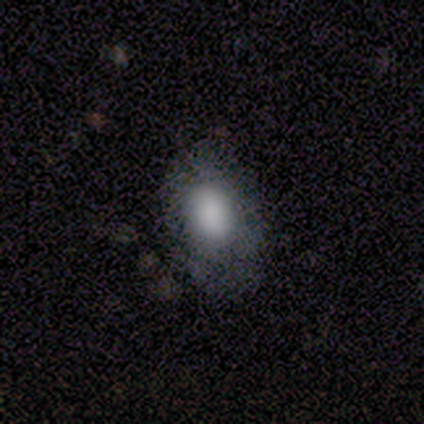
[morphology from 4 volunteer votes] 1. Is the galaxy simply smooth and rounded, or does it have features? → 50% smooth (tied), 50% featured or disk (tied), 0% star or artifact.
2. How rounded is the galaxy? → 50% round (tied), 50% in between (tied), 0% cigar-shaped.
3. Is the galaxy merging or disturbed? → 50% none (tied), 50% minor disturbance (tied), 0% major disturbance, 0% merger.